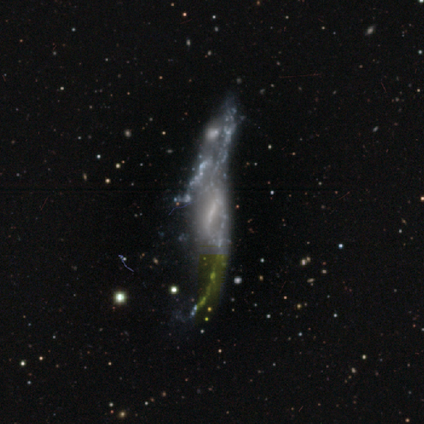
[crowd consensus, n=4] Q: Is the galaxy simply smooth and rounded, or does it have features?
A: featured or disk — 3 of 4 (75%).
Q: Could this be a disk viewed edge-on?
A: no — 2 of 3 (67%).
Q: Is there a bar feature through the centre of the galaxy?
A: weak — 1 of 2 (50%, tied with no).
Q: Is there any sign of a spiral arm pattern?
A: no — 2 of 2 (100%).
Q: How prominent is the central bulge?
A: small — 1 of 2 (50%, tied with none).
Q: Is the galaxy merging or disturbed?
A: none — 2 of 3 (67%).